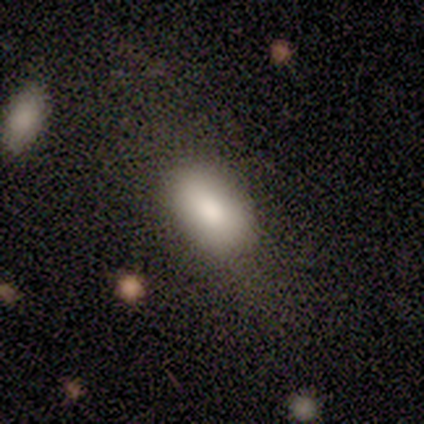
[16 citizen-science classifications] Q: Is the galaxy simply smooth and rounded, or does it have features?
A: smooth — 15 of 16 (94%).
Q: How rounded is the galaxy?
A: in between — 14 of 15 (93%).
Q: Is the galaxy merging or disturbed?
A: none — 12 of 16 (75%).